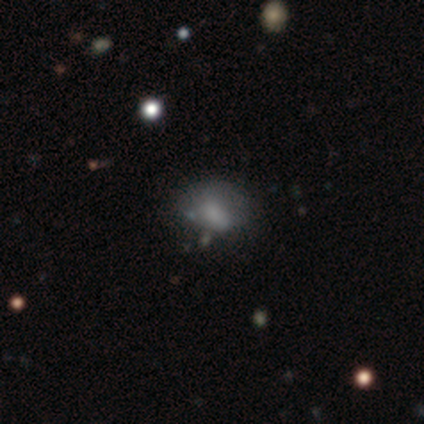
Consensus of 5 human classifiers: Smooth or featured? 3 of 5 (60%) said star or artifact.